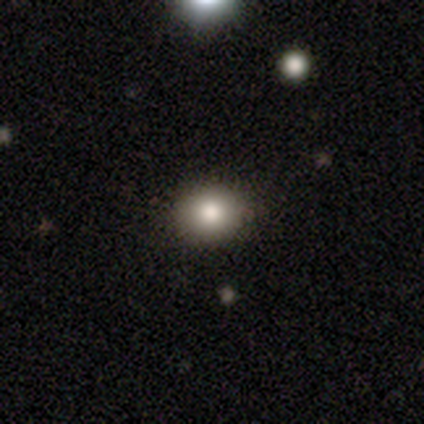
This is clearly a smooth galaxy (100%). How rounded: clearly round (80%). Merging: clearly none (80%).